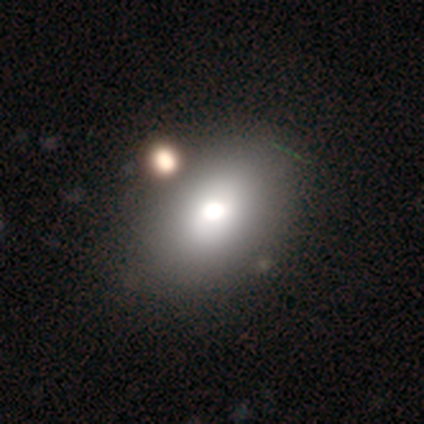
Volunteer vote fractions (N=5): Smooth or featured: smooth — 60% (featured or disk — 20%)
How rounded: in between — 100%
Merging: none — 75% (minor disturbance — 25%)